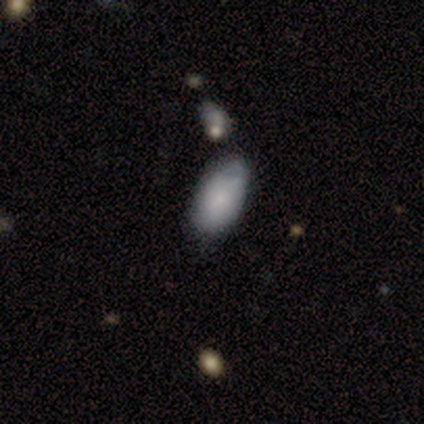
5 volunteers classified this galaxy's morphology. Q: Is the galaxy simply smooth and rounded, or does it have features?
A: smooth — 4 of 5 (80%).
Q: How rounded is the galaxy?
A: in between — 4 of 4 (100%).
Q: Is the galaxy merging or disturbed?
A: none — 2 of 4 (50%, tied with minor disturbance).